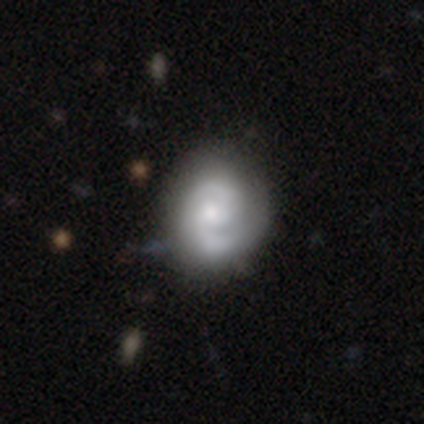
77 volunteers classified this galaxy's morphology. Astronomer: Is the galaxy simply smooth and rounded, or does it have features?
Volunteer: featured or disk — 68%.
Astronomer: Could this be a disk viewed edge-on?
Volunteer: no — 98%.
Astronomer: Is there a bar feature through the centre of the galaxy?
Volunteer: no — 61% (runner-up: weak, 39%).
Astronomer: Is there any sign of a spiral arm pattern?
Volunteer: yes — 98%.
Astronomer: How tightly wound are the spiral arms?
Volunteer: tight — 52% (runner-up: medium, 36%).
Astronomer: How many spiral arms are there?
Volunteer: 2 — 86%.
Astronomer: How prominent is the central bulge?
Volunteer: moderate — 45% (runner-up: small, 41%).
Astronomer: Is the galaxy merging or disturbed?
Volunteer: none — 36%.